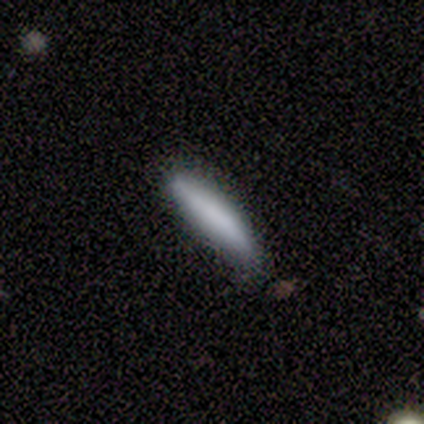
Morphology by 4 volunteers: This appears to be a smooth galaxy with no disk features (50%, tied with featured or disk) that is cigar-shaped (100%). Merging: none (75%).